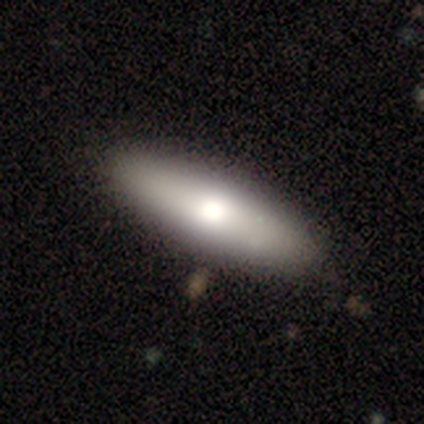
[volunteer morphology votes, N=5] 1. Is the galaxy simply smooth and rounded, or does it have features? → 60% featured or disk, 40% smooth, 0% star or artifact.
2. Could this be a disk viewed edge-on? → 67% yes, 33% no.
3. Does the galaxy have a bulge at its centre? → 100% rounded, 0% boxy, 0% none.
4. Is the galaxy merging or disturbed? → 100% none, 0% minor disturbance, 0% major disturbance, 0% merger.